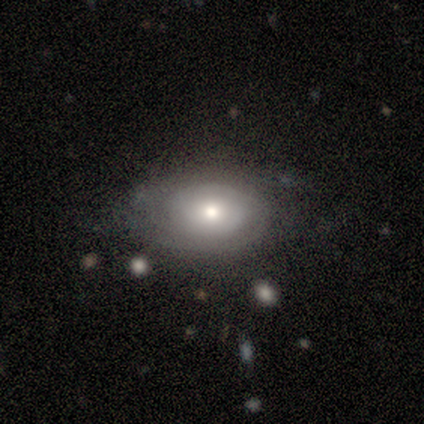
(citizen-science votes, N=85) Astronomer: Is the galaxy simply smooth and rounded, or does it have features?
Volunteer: featured or disk — 58% (runner-up: smooth, 36%).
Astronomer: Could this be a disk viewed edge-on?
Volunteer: no — 98%.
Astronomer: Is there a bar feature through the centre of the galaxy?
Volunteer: no — 77%.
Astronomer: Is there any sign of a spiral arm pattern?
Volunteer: yes — 96%.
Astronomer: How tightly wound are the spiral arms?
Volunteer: tight — 78%.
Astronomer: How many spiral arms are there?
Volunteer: can't tell — 46% (runner-up: 2, 35%).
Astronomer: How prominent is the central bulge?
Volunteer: moderate — 67%.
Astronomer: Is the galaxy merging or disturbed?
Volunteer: none — 75%.